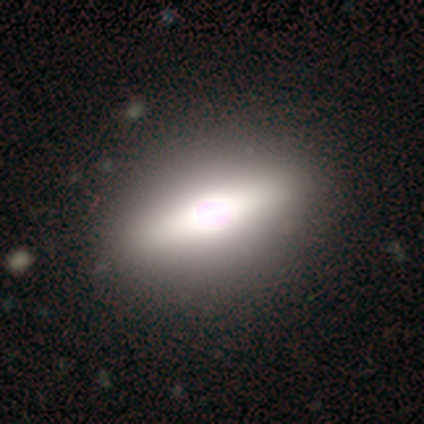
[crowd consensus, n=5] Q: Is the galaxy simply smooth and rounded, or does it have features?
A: featured or disk — 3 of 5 (60%).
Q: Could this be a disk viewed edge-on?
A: yes — 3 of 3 (100%).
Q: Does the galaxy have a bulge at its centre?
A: boxy — 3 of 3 (100%).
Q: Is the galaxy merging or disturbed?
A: none — 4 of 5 (80%).